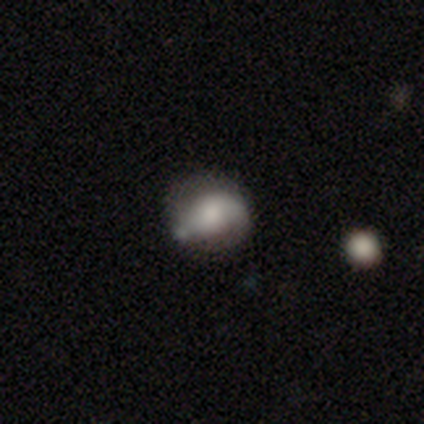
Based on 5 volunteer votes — Q: Smooth or featured?
A: featured or disk (60%); runner-up: smooth (40%)
Q: Edge-on disk?
A: no (100%)
Q: Bar?
A: no (67%); runner-up: strong (33%)
Q: Spiral arms?
A: no (67%); runner-up: yes (33%)
Q: Bulge size?
A: large (67%); runner-up: moderate (33%)
Q: Merging?
A: none (40%); runner-up: minor disturbance (20%)